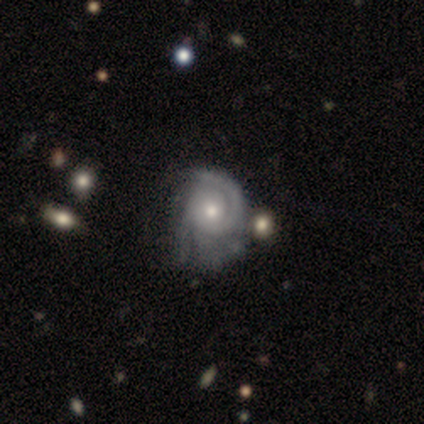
Volunteers were most divided on "spiral arm count": 1: 67%, can't tell: 33%, 2: 0%, 3: 0%, 4: 0%, more than 4: 0%. More confident: edge-on disk — no (100%); bar — no (100%); spiral arms — yes (100%); spiral winding — tight (100%); bulge size — moderate (100%); smooth or featured — featured or disk (75%); merging — major disturbance (67%).